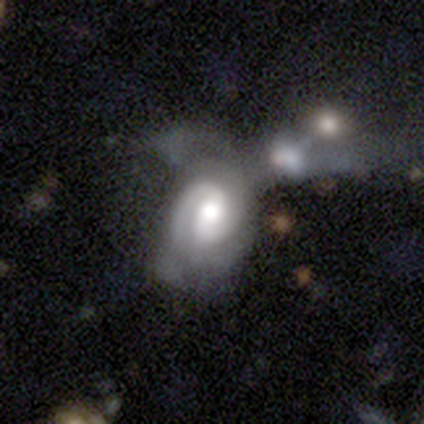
Smooth or featured? featured or disk (82%)
Edge-on disk? no (100%)
Bar? no (44%)
Spiral arms? yes (100%)
Spiral winding? tight (56%)
Spiral arm count? 2 (72%)
Bulge size? moderate (59%)
Merging? merger (42%)